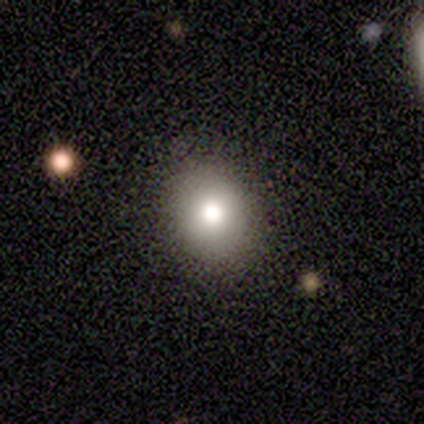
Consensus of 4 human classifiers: Consensus on every question: smooth or featured — smooth (100%); how rounded — round (100%); merging — none (100%).